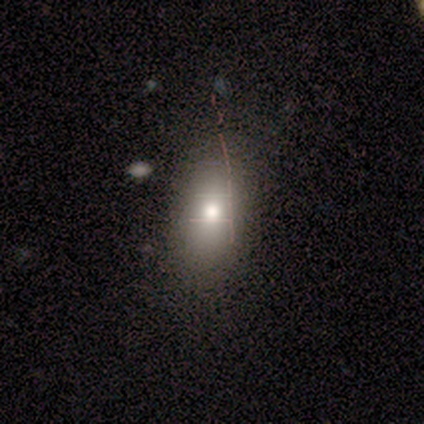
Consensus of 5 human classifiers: A smooth galaxy with no disk features (80%) that is in between round and cigar-shaped (75%). Merging: none (40%, tied with minor disturbance).